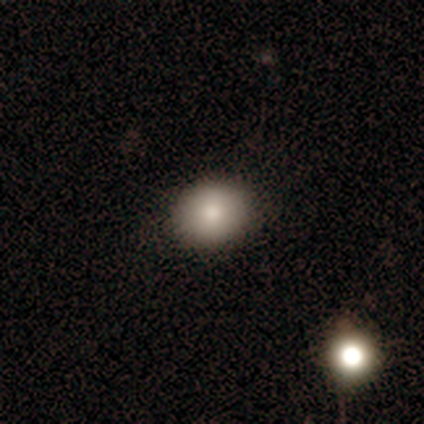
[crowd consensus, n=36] Morphology: type=smooth (81%); roundness=round (66%); merging=none (91%).